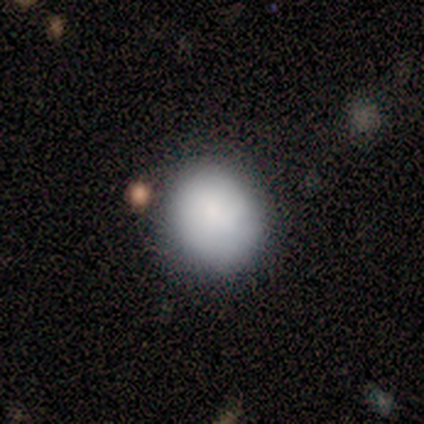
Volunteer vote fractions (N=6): smooth-or-featured: smooth: 100% | featured or disk: 0% | star or artifact: 0%
  how-rounded: round: 83% | in between: 17% | cigar-shaped: 0%
  merging: none: 83% | major disturbance: 17% | minor disturbance: 0% | merger: 0%